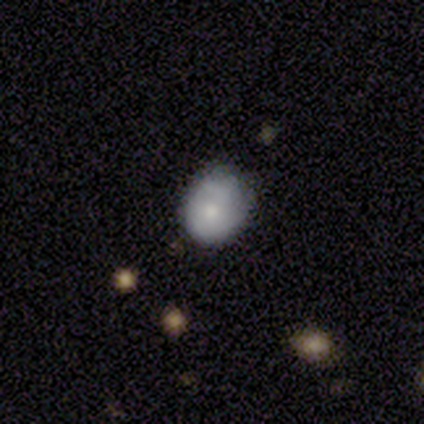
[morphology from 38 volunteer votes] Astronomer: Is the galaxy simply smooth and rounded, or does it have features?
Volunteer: smooth — 58%.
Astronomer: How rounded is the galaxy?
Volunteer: round — 59% (runner-up: in between, 41%).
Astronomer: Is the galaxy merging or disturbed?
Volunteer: none — 62%.